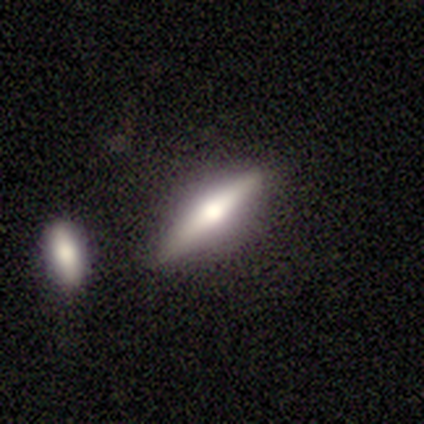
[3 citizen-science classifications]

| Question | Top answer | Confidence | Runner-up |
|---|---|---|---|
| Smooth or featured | featured or disk | 67% | smooth (33%) |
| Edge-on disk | yes | 100% | — |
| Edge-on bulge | rounded | 100% | — |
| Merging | none | 100% | — |